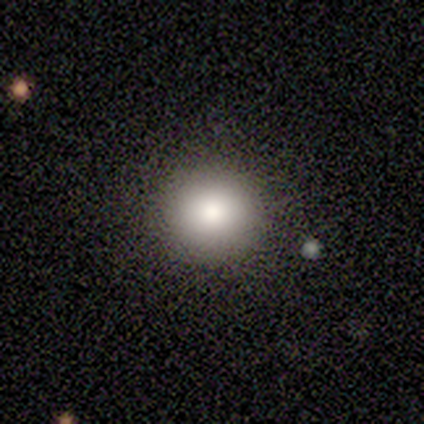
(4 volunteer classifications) smooth_or_featured: smooth (p=0.75) [alt: star or artifact p=0.25]
how_rounded: round (p=1.00)
merging: none (p=1.00)